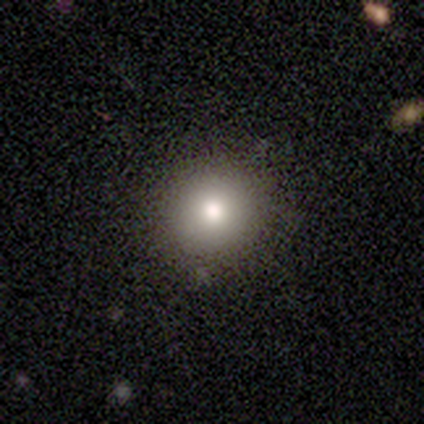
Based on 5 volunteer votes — Q: Smooth or featured?
A: smooth (60%); runner-up: featured or disk (20%)
Q: How rounded?
A: round (100%)
Q: Merging?
A: none (100%)